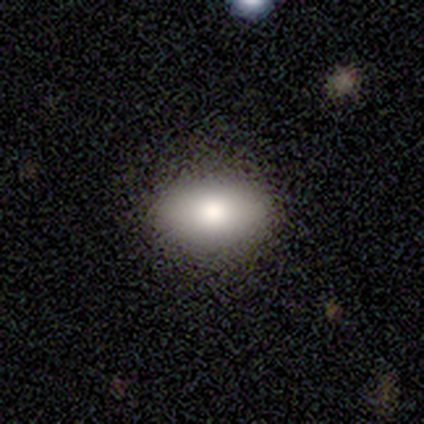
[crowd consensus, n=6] Morphology: type=smooth (83%); roundness=in between (100%); merging=none (100%).